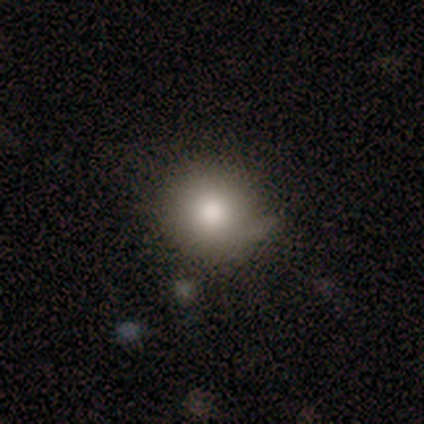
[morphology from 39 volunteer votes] Smooth or featured? 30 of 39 (77%) said smooth. How rounded? 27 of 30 (90%) said round. Merging? 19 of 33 (58%) said none.